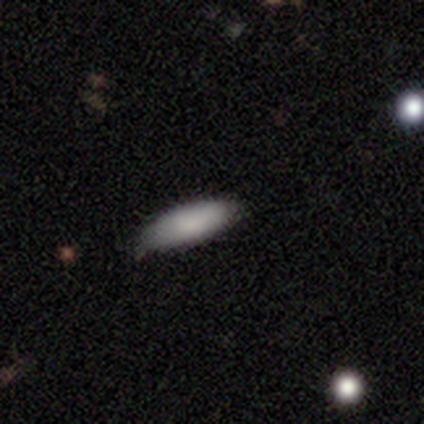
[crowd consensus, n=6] smooth-or-featured: smooth: 83% | featured or disk: 17% | star or artifact: 0%
  how-rounded: in between: 80% | cigar-shaped: 20% | round: 0%
  merging: none: 50% (tied) | minor disturbance: 50% (tied) | major disturbance: 0% | merger: 0%